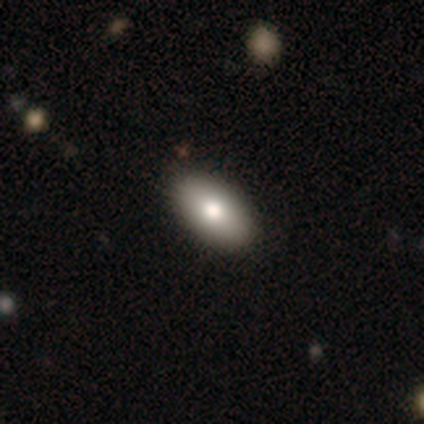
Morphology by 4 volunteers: type=smooth (75%); roundness=in between (100%); merging=none (75%).